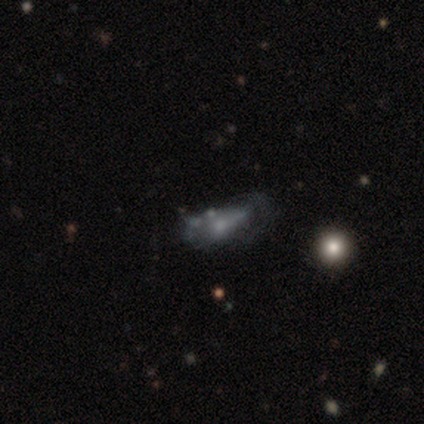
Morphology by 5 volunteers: smooth-or-featured: featured or disk: 60% | smooth: 40% | star or artifact: 0%
  disk-edge-on: no: 67% | yes: 33%
    bar: weak: 100% | strong: 0% | no: 0%
    has-spiral-arms: yes: 50% (tied) | no: 50% (tied)
      spiral-winding: medium: 100% | tight: 0% | loose: 0%
      spiral-arm-count: 1: 100% | 2: 0% | 3: 0% | 4: 0% | more than 4: 0% | can't tell: 0%
    bulge-size: small: 100% | dominant: 0% | large: 0% | moderate: 0% | none: 0%
  merging: minor disturbance: 60% | none: 20% | major disturbance: 20% | merger: 0%